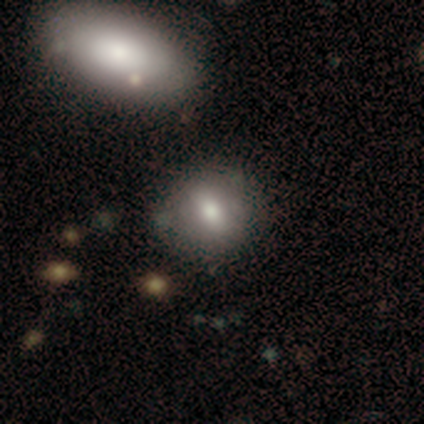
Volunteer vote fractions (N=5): Volunteers were most divided on "smooth or featured": smooth: 60%, featured or disk: 40%, star or artifact: 0%. More confident: merging — none (80%); how rounded — round (67%).